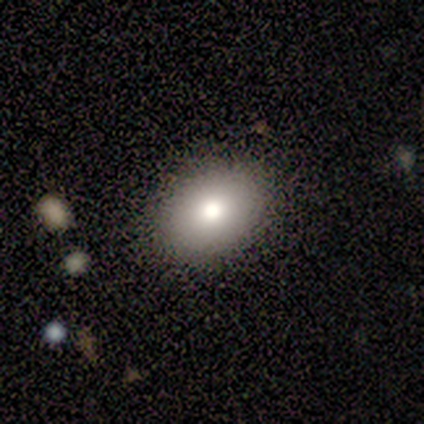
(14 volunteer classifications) Smooth or featured? 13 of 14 (93%) said smooth. How rounded? 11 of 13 (85%) said in between. Merging? 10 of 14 (71%) said none.